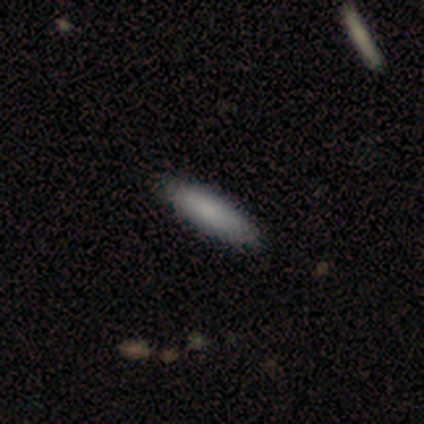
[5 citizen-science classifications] Smooth or featured? 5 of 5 (100%) said smooth. How rounded? 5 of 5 (100%) said cigar-shaped. Merging? 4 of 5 (80%) said none.